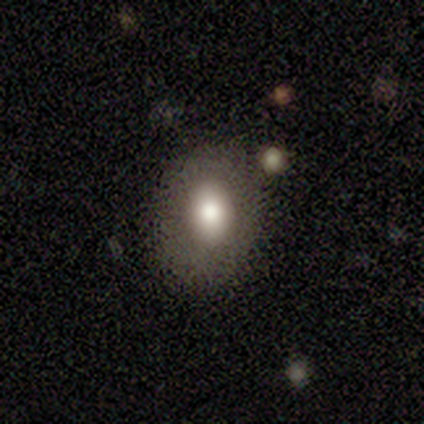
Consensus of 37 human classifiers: Smooth or featured? smooth (81%)
How rounded? in between (67%)
Merging? none (89%)